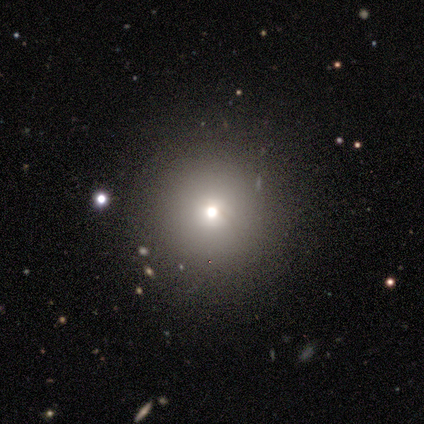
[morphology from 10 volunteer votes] This is likely a smooth galaxy (60%). How rounded: clearly round (83%). Merging: clearly none (86%).